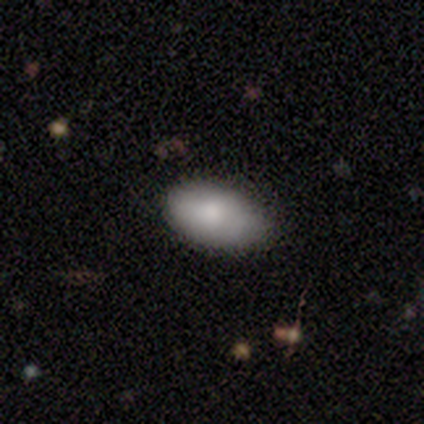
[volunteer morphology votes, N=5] Smooth or featured?
  - smooth: 100% *
  - featured or disk: 0%
  - star or artifact: 0%
How rounded?
  - in between: 100% *
  - round: 0%
  - cigar-shaped: 0%
Merging?
  - none: 60% *
  - minor disturbance: 40%
  - major disturbance: 0%
  - merger: 0%